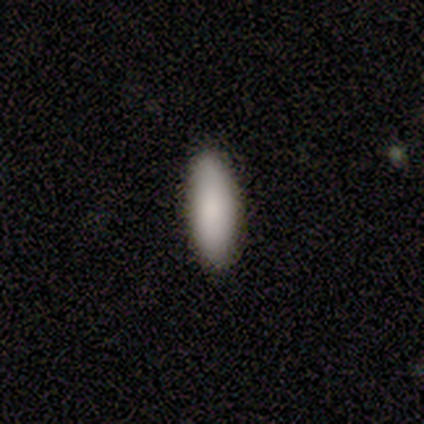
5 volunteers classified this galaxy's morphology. This is clearly a smooth galaxy (100%). How rounded: likely cigar-shaped (60%). Merging: clearly none (100%).